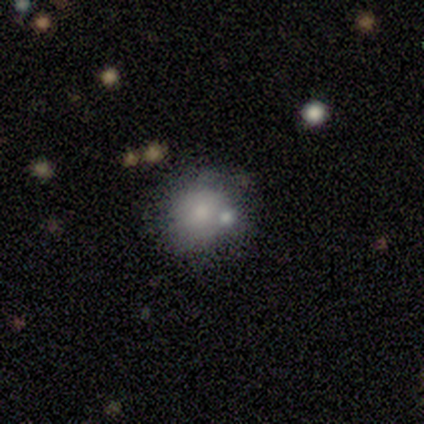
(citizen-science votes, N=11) Smooth or featured?
  - smooth: 73% *
  - star or artifact: 18%
  - featured or disk: 9%
How rounded?
  - round: 62% *
  - in between: 38%
  - cigar-shaped: 0%
Merging?
  - none: 67% *
  - merger: 22%
  - major disturbance: 11%
  - minor disturbance: 0%